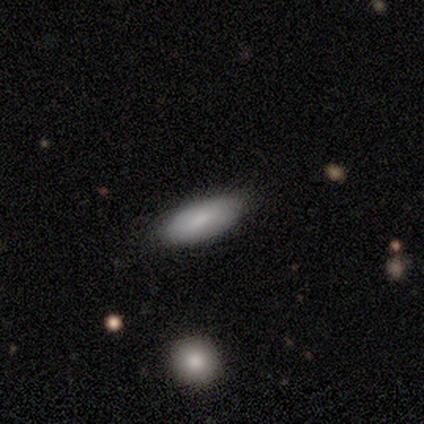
smooth 75%, featured or disk 25%, star or artifact 0%. Down the decision tree: how rounded — in between (100%); merging — none (100%).